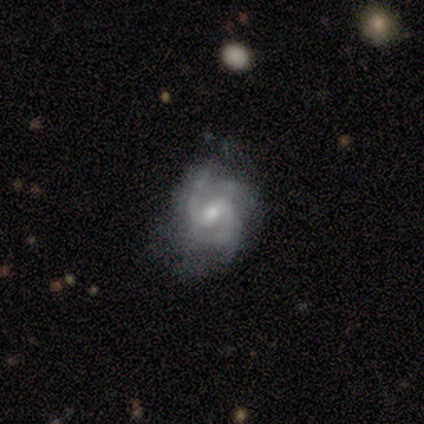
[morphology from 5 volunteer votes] Smooth or featured: featured or disk — 100%
Edge-on disk: no — 100%
Bar: weak — 60% (strong — 20%)
Spiral arms: yes — 100%
Spiral winding: medium — 60% (loose — 40%)
Spiral arm count: 2 — 100%
Bulge size: moderate — 60% (small — 40%)
Merging: none — 80% (minor disturbance — 20%)